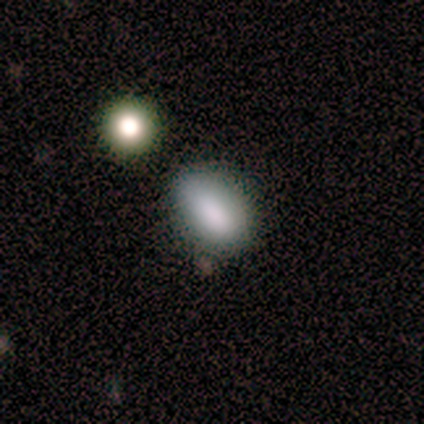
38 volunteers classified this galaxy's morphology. smooth 95%, star or artifact 5%, featured or disk 0%. Down the decision tree: how rounded — in between (86%); merging — none (61%).